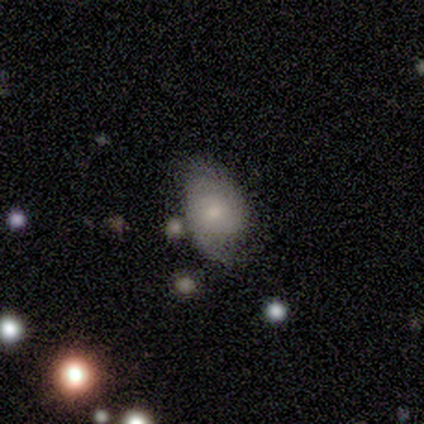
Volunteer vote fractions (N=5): Smooth or featured: featured or disk — 60% (smooth — 20%)
Edge-on disk: no — 100%
Bar: no — 67% (weak — 33%)
Spiral arms: no — 67% (yes — 33%)
Bulge size: moderate — 67% (small — 33%)
Merging: none — 50% (tied with minor disturbance — 50%)